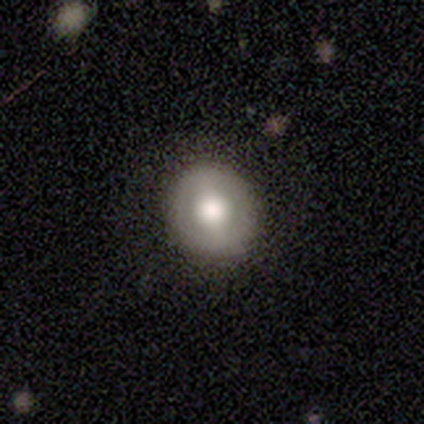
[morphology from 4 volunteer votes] Smooth or featured?
  - featured or disk: 75% *
  - smooth: 25%
  - star or artifact: 0%
Edge-on disk?
  - no: 100% *
  - yes: 0%
Bar?
  - no: 67% *
  - strong: 33%
  - weak: 0%
Spiral arms?
  - no: 100% *
  - yes: 0%
Bulge size?
  - moderate: 67% *
  - large: 33%
  - dominant: 0%
  - small: 0%
  - none: 0%
Merging?
  - none: 100% *
  - minor disturbance: 0%
  - major disturbance: 0%
  - merger: 0%